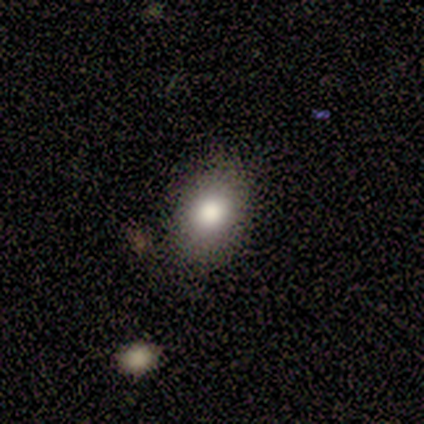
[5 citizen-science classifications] Volunteers were most divided on "merging": none: 80%, minor disturbance: 20%, major disturbance: 0%, merger: 0%. More confident: smooth or featured — smooth (100%); how rounded — in between (100%).